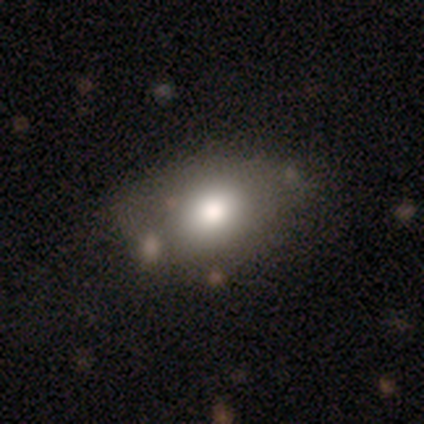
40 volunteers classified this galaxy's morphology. smooth-or-featured: smooth: 72% | featured or disk: 15% | star or artifact: 12%
  how-rounded: in between: 83% | round: 14% | cigar-shaped: 3%
  merging: none: 60% | minor disturbance: 23% | merger: 14% | major disturbance: 3%